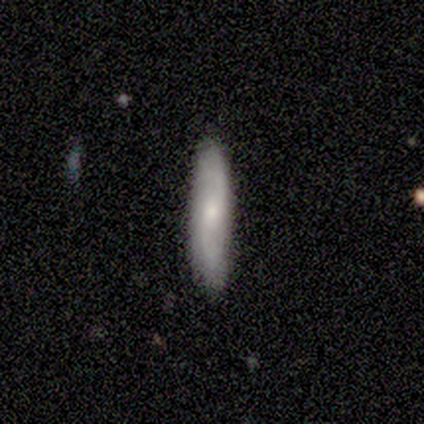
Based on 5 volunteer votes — This appears to be a featured or disk galaxy (60%) with no bar (67%), tight (67%) spiral arms (100%) and a small central bulge (100%). Merging: none (100%).